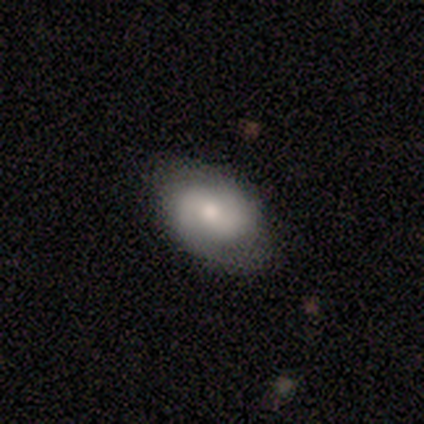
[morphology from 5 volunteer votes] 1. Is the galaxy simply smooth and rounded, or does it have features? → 80% featured or disk, 20% star or artifact, 0% smooth.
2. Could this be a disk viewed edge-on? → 100% no, 0% yes.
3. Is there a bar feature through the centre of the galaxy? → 75% weak, 25% no, 0% strong.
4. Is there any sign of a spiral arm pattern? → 75% yes, 25% no.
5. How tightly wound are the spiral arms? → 67% medium, 33% tight, 0% loose.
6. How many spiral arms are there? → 100% 2, 0% 1, 0% 3, 0% 4, 0% more than 4, 0% can't tell.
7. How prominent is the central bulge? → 100% moderate, 0% dominant, 0% large, 0% small, 0% none.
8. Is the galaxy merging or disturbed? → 100% none, 0% minor disturbance, 0% major disturbance, 0% merger.